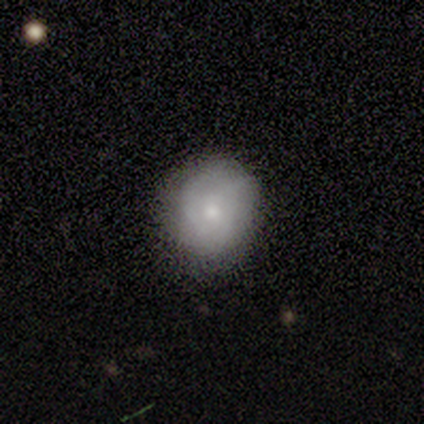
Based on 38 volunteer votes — This is possibly a smooth galaxy (50%). How rounded: clearly round (89%). Merging: likely none (70%).